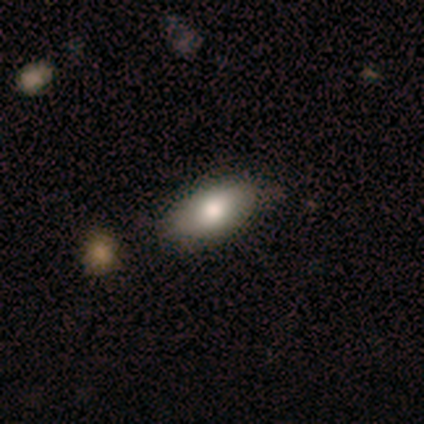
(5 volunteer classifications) A smooth galaxy with no disk features (60%) that is in between round and cigar-shaped (100%).

Vote fractions:
- Smooth or featured? smooth: 60% / featured or disk: 40% / star or artifact: 0%
- How rounded? in between: 100% / round: 0% / cigar-shaped: 0%
- Merging? none: 60% / minor disturbance: 20% / merger: 20% / major disturbance: 0%